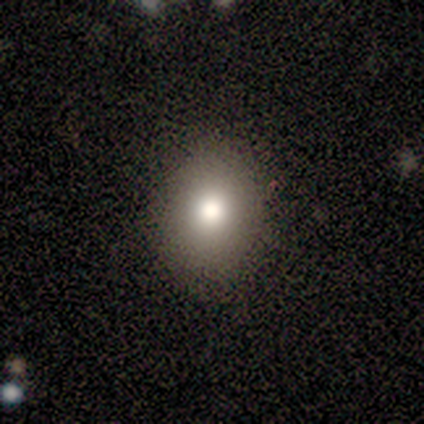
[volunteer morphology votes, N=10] Smooth or featured? 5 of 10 (50%) said smooth. How rounded? 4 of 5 (80%) said round. Merging? 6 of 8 (75%) said none.